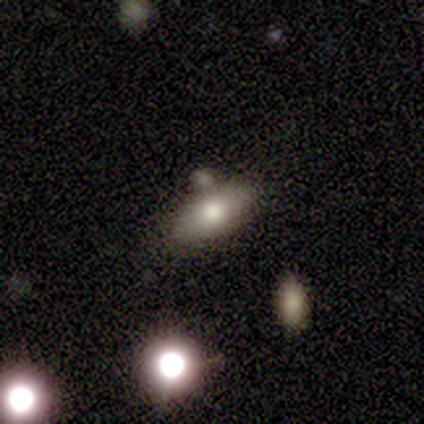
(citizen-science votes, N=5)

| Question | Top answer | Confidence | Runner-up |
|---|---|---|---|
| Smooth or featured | smooth | 60% | featured or disk (20%) |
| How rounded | in between | 100% | — |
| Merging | none | 100% | — |